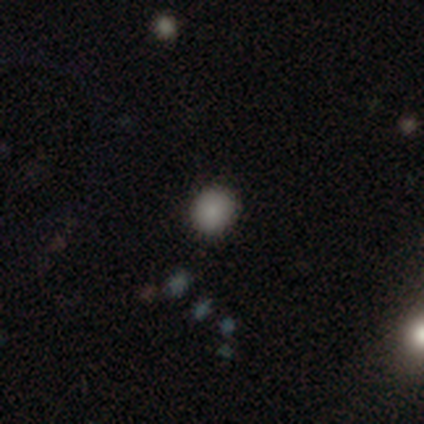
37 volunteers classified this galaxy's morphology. smooth_or_featured: smooth (p=0.86) [alt: featured or disk p=0.08]
how_rounded: round (p=0.94) [alt: in between p=0.06]
merging: none (p=0.91) [alt: minor disturbance p=0.06]